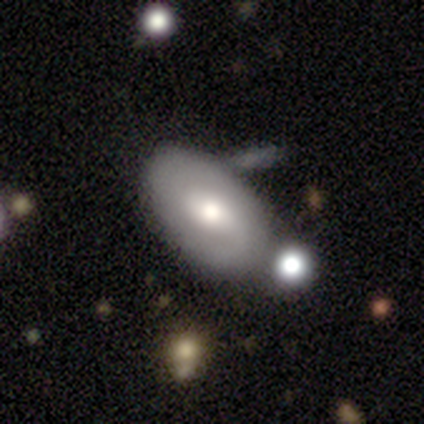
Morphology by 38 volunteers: Smooth or featured? 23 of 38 (61%) said smooth. How rounded? 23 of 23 (100%) said in between. Merging? 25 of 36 (69%) said none.